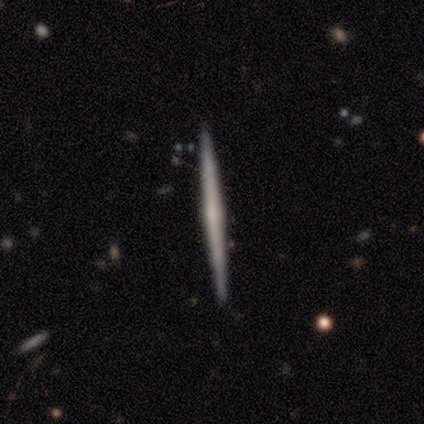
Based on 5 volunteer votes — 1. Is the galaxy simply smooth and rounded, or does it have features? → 100% featured or disk, 0% smooth, 0% star or artifact.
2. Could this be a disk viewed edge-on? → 100% yes, 0% no.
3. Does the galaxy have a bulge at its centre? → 80% rounded, 20% none, 0% boxy.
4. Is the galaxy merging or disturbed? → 80% none, 20% major disturbance, 0% minor disturbance, 0% merger.